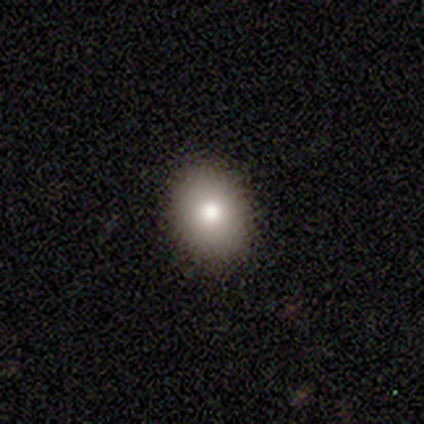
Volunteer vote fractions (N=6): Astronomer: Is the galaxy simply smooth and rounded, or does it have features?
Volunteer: smooth — 67%.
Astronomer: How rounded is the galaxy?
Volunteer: in between — 75%.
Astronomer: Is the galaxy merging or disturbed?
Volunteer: none — 100%.